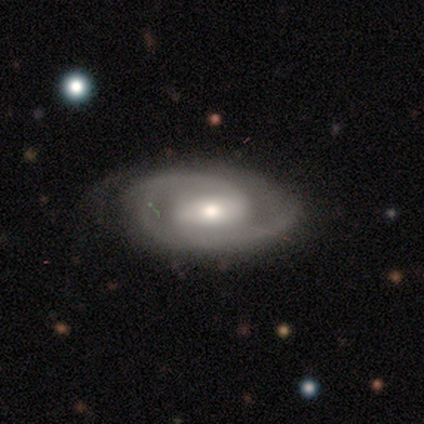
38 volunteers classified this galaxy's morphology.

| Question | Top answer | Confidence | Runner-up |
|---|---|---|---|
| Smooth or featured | featured or disk | 100% | — |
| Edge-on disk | no | 100% | — |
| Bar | weak | 47% | strong (34%) |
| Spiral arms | yes | 100% | — |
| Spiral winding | tight | 45% | medium (42%) |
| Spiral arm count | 2 | 61% | 1 (24%) |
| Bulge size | moderate | 55% | small (32%) |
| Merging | none | 79% | minor disturbance (18%) |